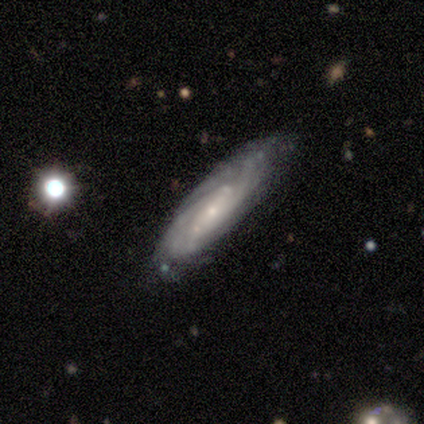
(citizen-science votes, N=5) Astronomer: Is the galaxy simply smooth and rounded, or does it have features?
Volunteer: featured or disk — 60% (runner-up: smooth, 40%).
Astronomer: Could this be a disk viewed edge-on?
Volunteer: no — 67%.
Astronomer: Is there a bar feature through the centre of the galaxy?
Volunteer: no — 100%.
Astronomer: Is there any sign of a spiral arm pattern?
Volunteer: yes — 100%.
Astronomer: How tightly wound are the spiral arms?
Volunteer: tight — 100%.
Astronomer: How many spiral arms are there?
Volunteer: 3 — 50%, tied with can't tell at 50%.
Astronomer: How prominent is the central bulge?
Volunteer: small — 100%.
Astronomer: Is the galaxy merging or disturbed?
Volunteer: none — 60% (runner-up: major disturbance, 40%).